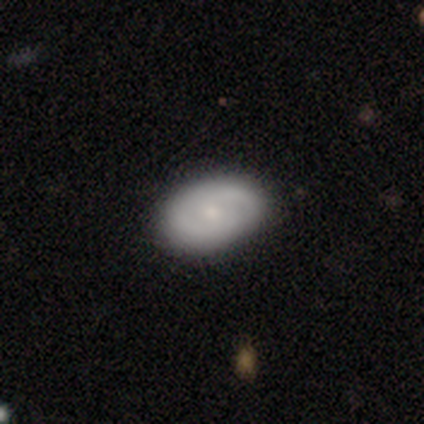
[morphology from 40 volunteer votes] Volunteers were most divided on "smooth or featured": smooth: 52%, featured or disk: 40%, star or artifact: 8%. More confident: how rounded — in between (81%); merging — none (76%).